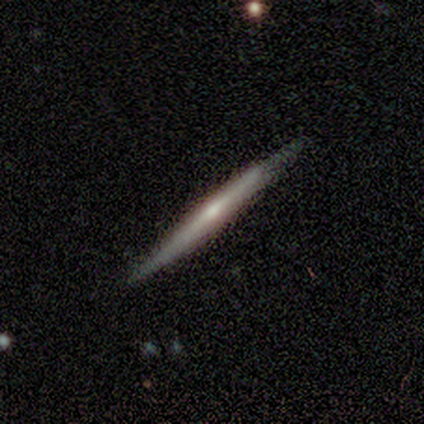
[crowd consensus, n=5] This appears to be a featured or disk galaxy (80%) viewed edge-on (100%) with no central bulge (75%). Merging: none (80%).